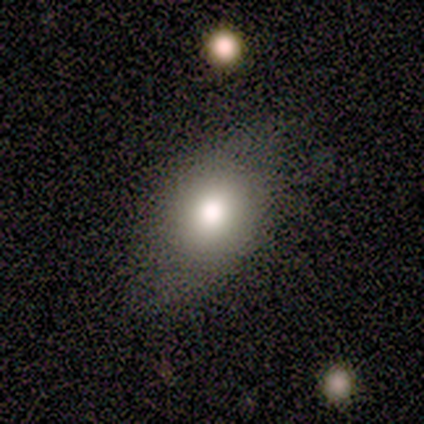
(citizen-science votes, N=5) Morphology: type=smooth (60%); roundness=in between (67%); merging=none (100%).